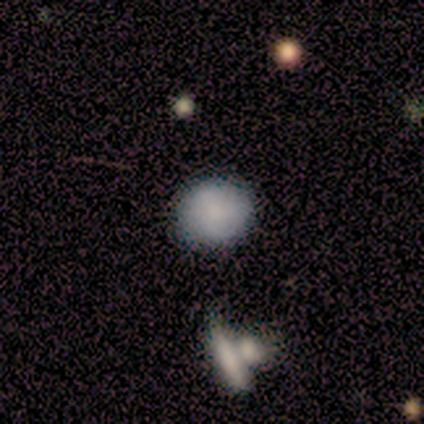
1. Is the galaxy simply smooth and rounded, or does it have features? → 100% smooth, 0% featured or disk, 0% star or artifact.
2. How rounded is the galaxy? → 100% round, 0% in between, 0% cigar-shaped.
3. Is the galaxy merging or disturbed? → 100% none, 0% minor disturbance, 0% major disturbance, 0% merger.